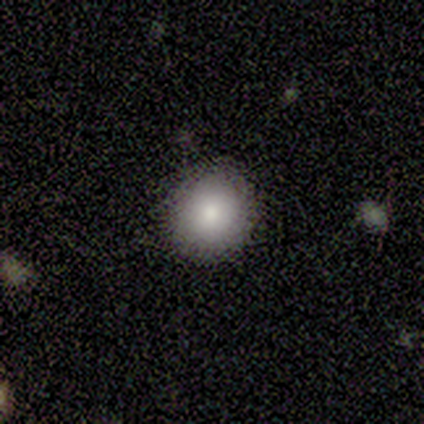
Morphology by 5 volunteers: type=smooth (80%); roundness=round (100%); merging=none (75%).